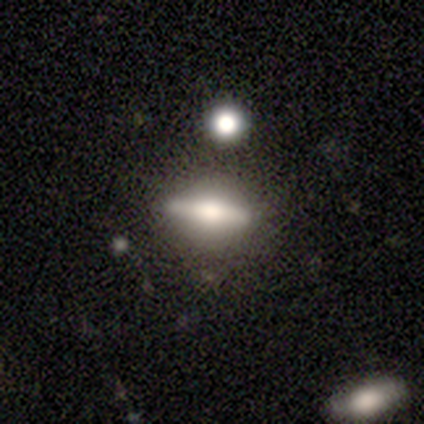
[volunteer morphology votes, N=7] A featured or disk galaxy (86%) viewed edge-on (100%) with a rounded central bulge (100%).

Vote fractions:
- Smooth or featured? featured or disk: 86% / smooth: 14% / star or artifact: 0%
- Edge-on disk? yes: 100% / no: 0%
- Edge-on bulge? rounded: 100% / boxy: 0% / none: 0%
- Merging? none: 100% / minor disturbance: 0% / major disturbance: 0% / merger: 0%